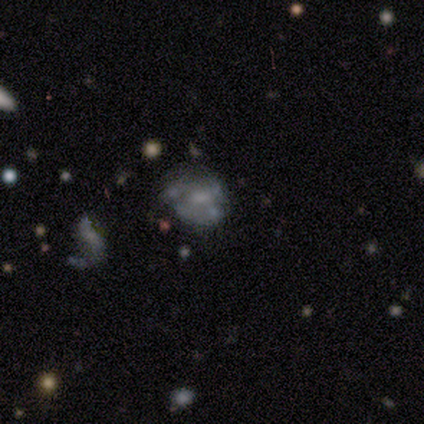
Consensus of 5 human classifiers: This appears to be a featured or disk galaxy (60%) with no bar (67%), no spiral arms (100%) and a moderate central bulge (33%, tied with small and none). Merging: minor disturbance (50%).